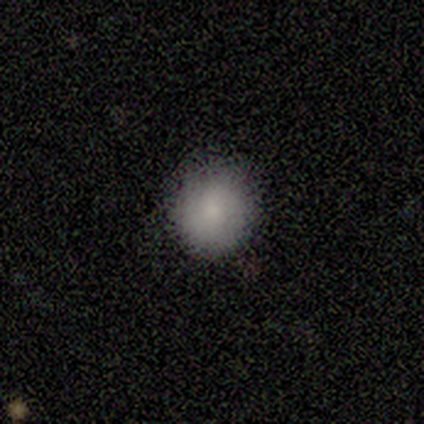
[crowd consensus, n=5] A smooth galaxy with no disk features (100%) that is round (60%). Merging: none (60%).